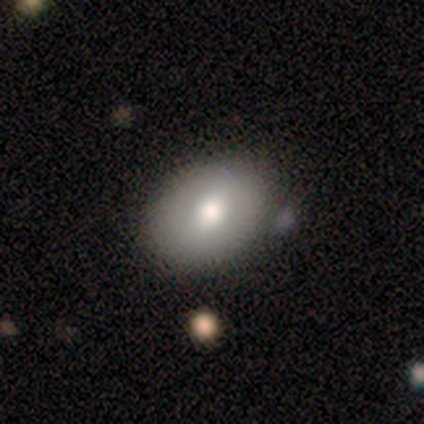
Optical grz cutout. It shows a smooth galaxy with no disk features (80%) that is in between round and cigar-shaped (100%). Merging: none (50%, tied with minor disturbance).